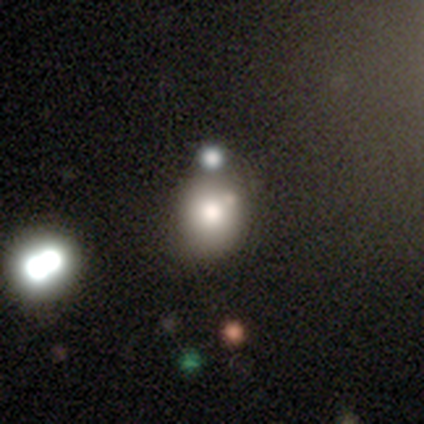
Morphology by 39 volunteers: Overall: smooth (72%). How rounded: round (68%; in between 32%). Merging: none (53%; merger 22%).